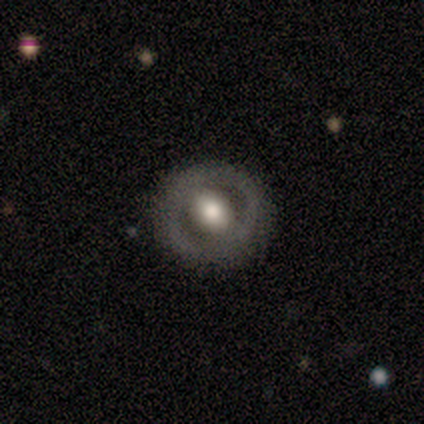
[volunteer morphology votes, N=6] Volunteers were most divided on "bar": no: 60%, weak: 40%, strong: 0%. More confident: edge-on disk — no (100%); spiral arms — no (100%); smooth or featured — featured or disk (83%); merging — none (67%); bulge size — large (60%).